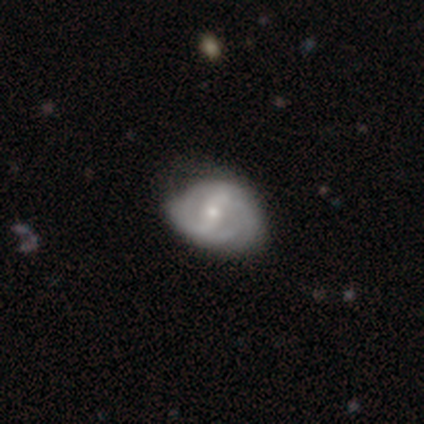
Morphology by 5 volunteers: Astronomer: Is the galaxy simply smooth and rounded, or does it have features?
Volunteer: featured or disk — 80%.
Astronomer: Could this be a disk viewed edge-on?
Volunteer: no — 100%.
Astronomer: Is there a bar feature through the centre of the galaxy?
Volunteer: strong — 75%.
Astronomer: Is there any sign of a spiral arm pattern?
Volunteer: yes — 75%.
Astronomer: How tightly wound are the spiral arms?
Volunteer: medium — 67%.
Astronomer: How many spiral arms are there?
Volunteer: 2 — 100%.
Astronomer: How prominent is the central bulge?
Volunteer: small — 75%.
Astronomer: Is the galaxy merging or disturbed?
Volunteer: minor disturbance — 80%.